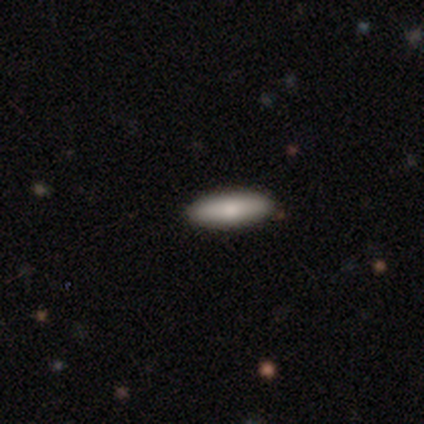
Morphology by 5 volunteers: A smooth galaxy with no disk features (100%) that is in between round and cigar-shaped (60%). Merging: none (80%).